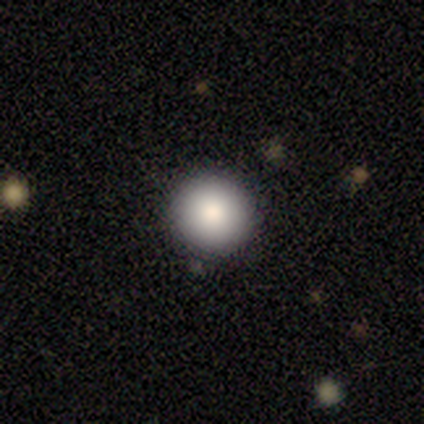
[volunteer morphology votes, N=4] smooth-or-featured: smooth: 100% | featured or disk: 0% | star or artifact: 0%
  how-rounded: round: 100% | in between: 0% | cigar-shaped: 0%
  merging: none: 100% | minor disturbance: 0% | major disturbance: 0% | merger: 0%